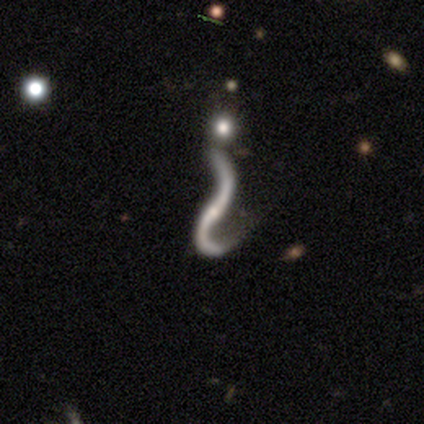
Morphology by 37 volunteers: A featured or disk galaxy (84%) with no bar (64%), 2 (81%) loose (100%) spiral arms (93%) and a small central bulge (79%).

Vote fractions:
- Smooth or featured? featured or disk: 84% / star or artifact: 11% / smooth: 5%
- Edge-on disk? no: 90% / yes: 10%
- Bar? no: 64% / weak: 21% / strong: 14%
- Spiral arms? yes: 93% / no: 7%
- Spiral winding? loose: 100% / tight: 0% / medium: 0%
- Spiral arm count? 2: 81% / 1: 19% / 3: 0% / 4: 0% / more than 4: 0% / can't tell: 0%
- Bulge size? small: 79% / none: 14% / moderate: 7% / dominant: 0% / large: 0%
- Merging? none: 36% / major disturbance: 27% / minor disturbance: 21% / merger: 15%